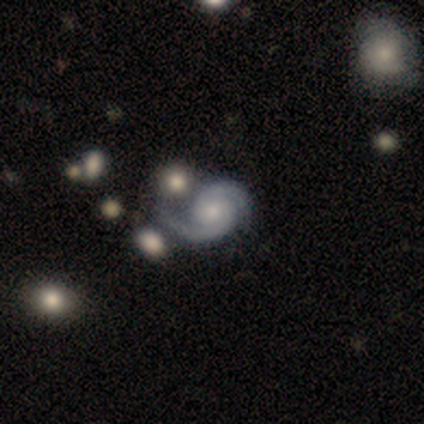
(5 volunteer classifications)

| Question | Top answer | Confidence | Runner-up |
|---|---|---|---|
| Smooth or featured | featured or disk | 100% | — |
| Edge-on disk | no | 100% | — |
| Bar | no | 80% | weak (20%) |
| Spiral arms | yes | 100% | — |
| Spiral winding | tight | 60% | medium (40%) |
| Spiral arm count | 2 | 100% | — |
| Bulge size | moderate | 80% | large (20%) |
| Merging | none | 80% | minor disturbance (20%) |